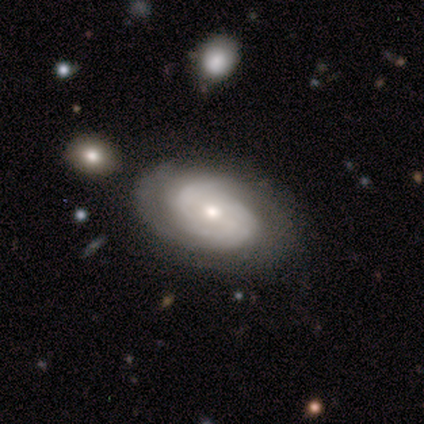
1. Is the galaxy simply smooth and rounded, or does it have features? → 75% featured or disk, 25% smooth, 0% star or artifact.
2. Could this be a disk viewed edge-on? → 67% no, 33% yes.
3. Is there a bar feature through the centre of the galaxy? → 100% no, 0% strong, 0% weak.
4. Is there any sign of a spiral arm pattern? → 100% yes, 0% no.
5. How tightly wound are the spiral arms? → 50% tight (tied), 50% medium (tied), 0% loose.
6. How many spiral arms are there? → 100% can't tell, 0% 1, 0% 2, 0% 3, 0% 4, 0% more than 4.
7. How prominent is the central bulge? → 50% moderate (tied), 50% small (tied), 0% dominant, 0% large, 0% none.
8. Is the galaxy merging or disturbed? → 100% none, 0% minor disturbance, 0% major disturbance, 0% merger.